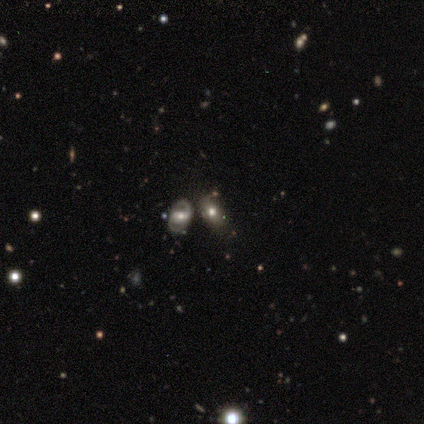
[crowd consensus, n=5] Morphology: type=smooth (80%); roundness=in between (100%); merging=none (80%).